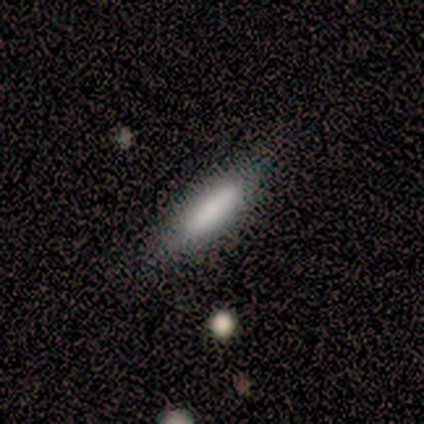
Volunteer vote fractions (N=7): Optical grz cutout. It shows a smooth galaxy with no disk features (100%) that is cigar-shaped (71%). Merging: none (100%).